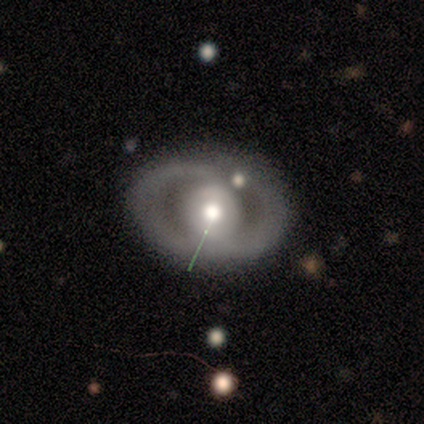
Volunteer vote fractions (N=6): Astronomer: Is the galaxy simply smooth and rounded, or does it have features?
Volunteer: featured or disk — 67%.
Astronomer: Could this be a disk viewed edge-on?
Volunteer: no — 75%.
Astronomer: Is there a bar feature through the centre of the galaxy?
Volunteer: no — 100%.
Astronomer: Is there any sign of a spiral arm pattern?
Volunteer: no — 67%.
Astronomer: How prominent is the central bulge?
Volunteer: moderate — 100%.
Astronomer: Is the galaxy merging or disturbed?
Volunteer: none — 80%.